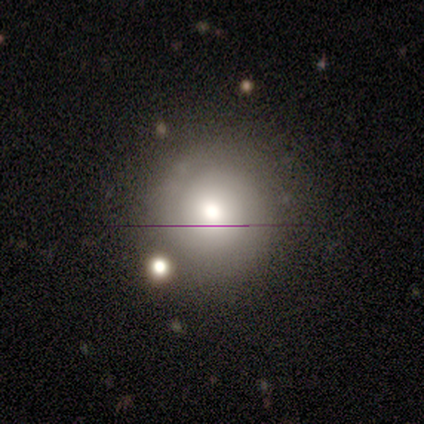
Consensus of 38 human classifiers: Overall: smooth (55%; featured or disk 34%). How rounded: round (95%). Merging: none (82%).